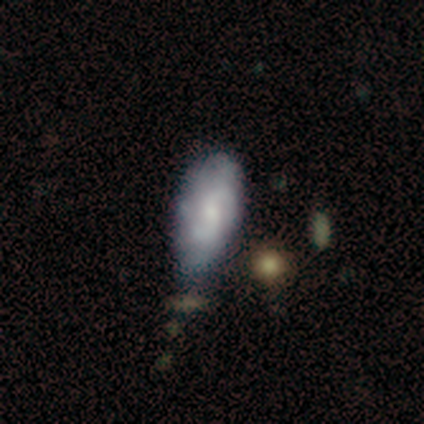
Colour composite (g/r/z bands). It shows a smooth galaxy with no disk features (60%) that is in between round and cigar-shaped (67%). Merging: none (60%).